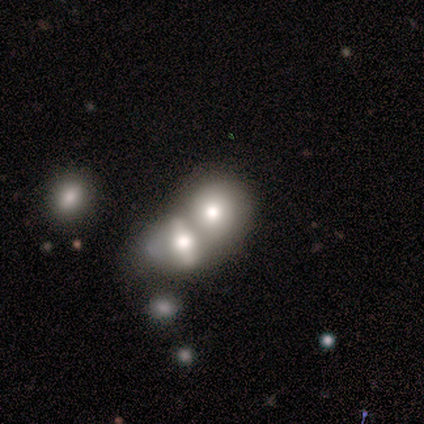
Smooth or featured: smooth — 80% (featured or disk — 20%)
How rounded: round — 50% (tied with in between — 50%)
Merging: merger — 80% (major disturbance — 20%)